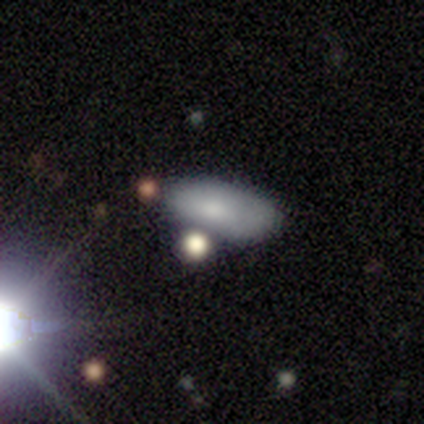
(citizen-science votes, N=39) A smooth galaxy with no disk features (77%) that is in between round and cigar-shaped (90%).

Vote fractions:
- Smooth or featured? smooth: 77% / star or artifact: 13% / featured or disk: 10%
- How rounded? in between: 90% / cigar-shaped: 10% / round: 0%
- Merging? none: 71% / minor disturbance: 21% / merger: 6% / major disturbance: 3%